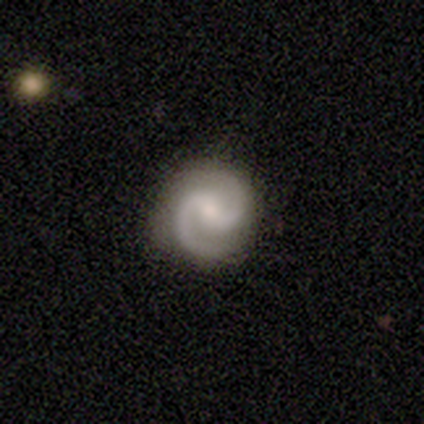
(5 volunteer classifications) Smooth or featured? 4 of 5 (80%) said featured or disk. Edge-on disk? 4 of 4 (100%) said no. Bar? 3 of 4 (75%) said weak. Spiral arms? 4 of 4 (100%) said yes. Spiral winding? 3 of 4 (75%) said medium. Spiral arm count? 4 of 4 (100%) said 2. Bulge size? 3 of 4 (75%) said small. Merging? 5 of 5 (100%) said none.